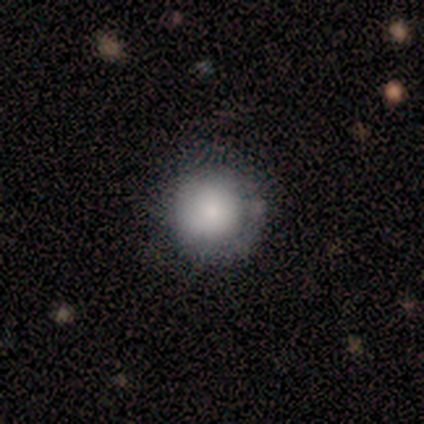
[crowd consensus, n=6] A smooth galaxy with no disk features (67%) that is round (100%).

Vote fractions:
- Smooth or featured? smooth: 67% / featured or disk: 33% / star or artifact: 0%
- How rounded? round: 100% / in between: 0% / cigar-shaped: 0%
- Merging? none: 50% (tied) / minor disturbance: 50% (tied) / major disturbance: 0% / merger: 0%